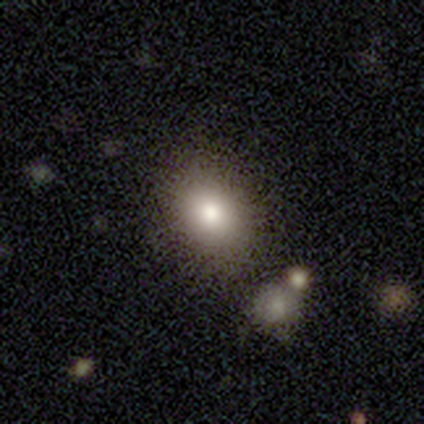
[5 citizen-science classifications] smooth 100%, featured or disk 0%, star or artifact 0%. Down the decision tree: how rounded — in between (80%); merging — none (40%, tied with minor disturbance).